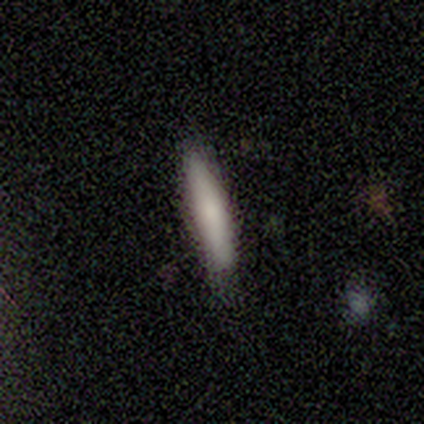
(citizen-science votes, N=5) smooth-or-featured: smooth: 100% | featured or disk: 0% | star or artifact: 0%
  how-rounded: cigar-shaped: 80% | in between: 20% | round: 0%
  merging: none: 60% | minor disturbance: 40% | major disturbance: 0% | merger: 0%